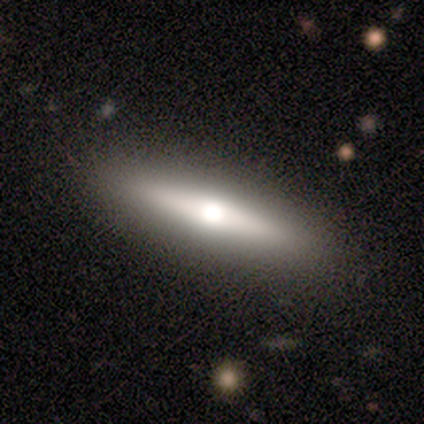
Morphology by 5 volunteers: Smooth or featured: smooth — 60% (featured or disk — 40%)
How rounded: cigar-shaped — 100%
Merging: none — 100%